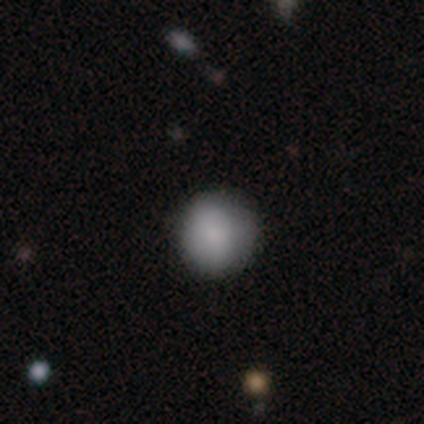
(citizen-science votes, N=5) Volunteers were most divided on "smooth or featured": smooth: 60%, featured or disk: 20%, star or artifact: 20%. More confident: how rounded — round (100%); merging — none (100%).